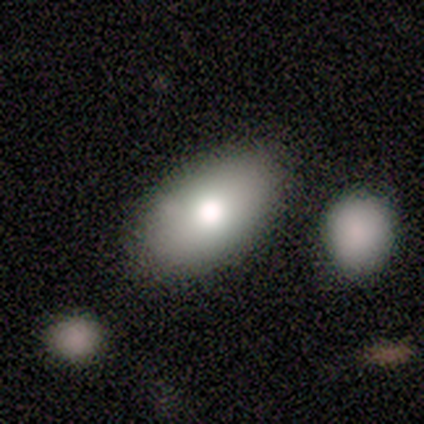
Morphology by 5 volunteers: This is clearly a smooth galaxy (80%). How rounded: clearly in between (100%). Merging: clearly none (100%).